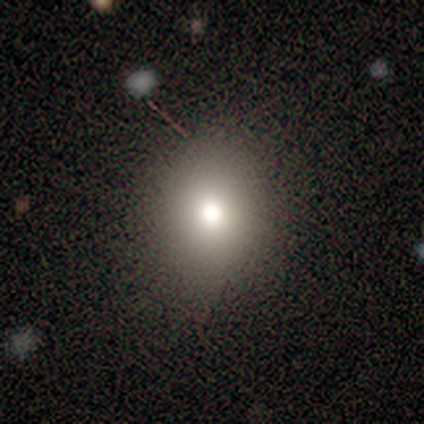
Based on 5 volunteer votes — Volunteers were most divided on "how rounded" (2-way tie): round: 50%, in between: 50%, cigar-shaped: 0%. More confident: merging — none (100%); smooth or featured — smooth (80%).